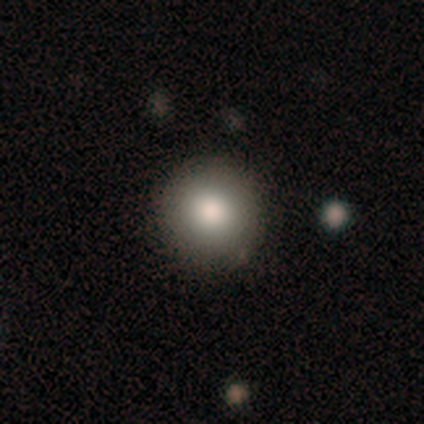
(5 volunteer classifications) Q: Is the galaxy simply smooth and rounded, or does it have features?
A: smooth — 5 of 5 (100%).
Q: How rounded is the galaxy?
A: round — 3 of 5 (60%).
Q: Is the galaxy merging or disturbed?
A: none — 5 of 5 (100%).